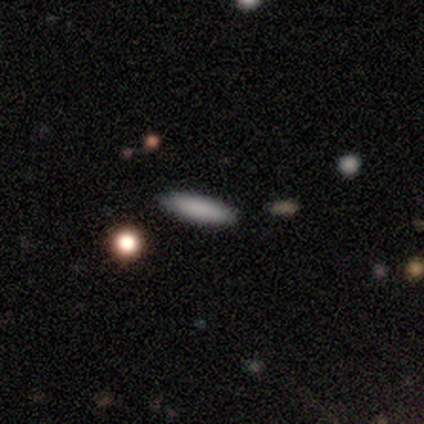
smooth-or-featured: smooth: 100% | featured or disk: 0% | star or artifact: 0%
  how-rounded: cigar-shaped: 80% | in between: 20% | round: 0%
  merging: none: 80% | minor disturbance: 20% | major disturbance: 0% | merger: 0%